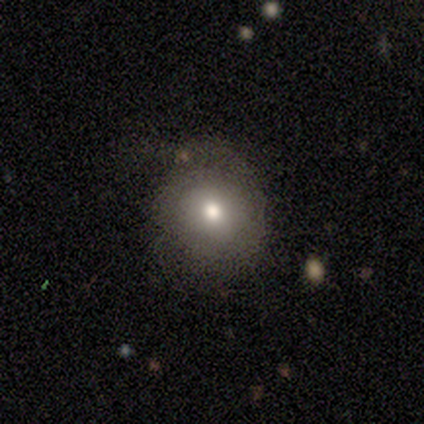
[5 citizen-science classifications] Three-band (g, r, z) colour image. It shows a smooth galaxy with no disk features (80%) that is round (75%). Merging: none (100%).